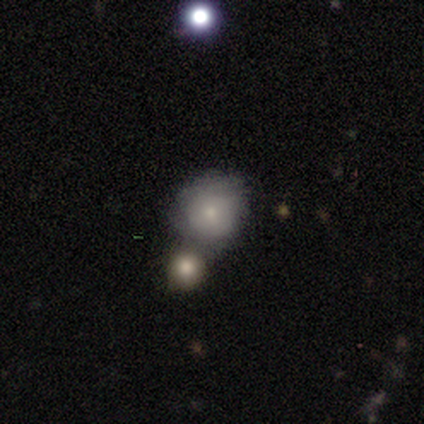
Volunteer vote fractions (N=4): Overall: star or artifact (50%; smooth 25%).